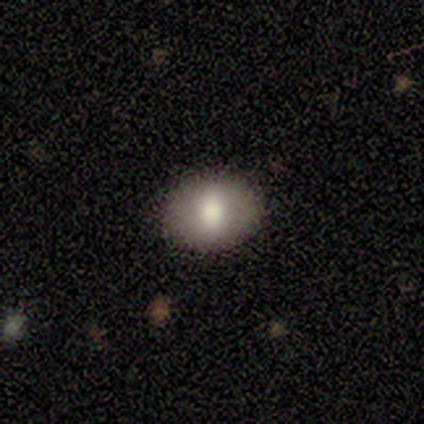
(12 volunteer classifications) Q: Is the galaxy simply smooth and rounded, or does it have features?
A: smooth — 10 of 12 (83%).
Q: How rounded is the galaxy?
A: in between — 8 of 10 (80%).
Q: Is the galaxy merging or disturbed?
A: none — 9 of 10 (90%).